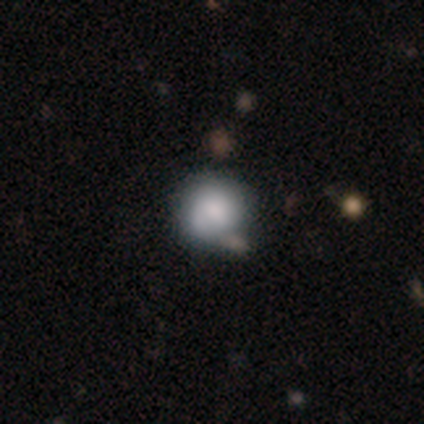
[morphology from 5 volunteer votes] Overall: smooth (100%). How rounded: round (100%). Merging: merger (60%; none 20%).